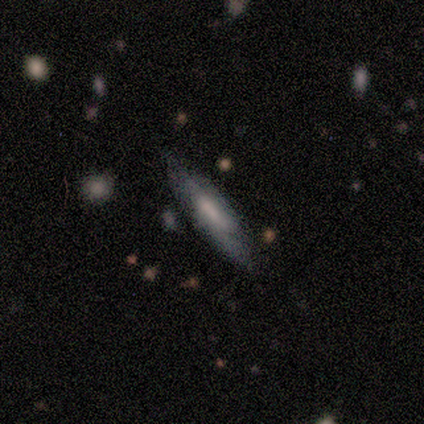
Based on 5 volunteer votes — smooth-or-featured: smooth: 100% | featured or disk: 0% | star or artifact: 0%
  how-rounded: in between: 60% | cigar-shaped: 40% | round: 0%
  merging: none: 80% | minor disturbance: 20% | major disturbance: 0% | merger: 0%